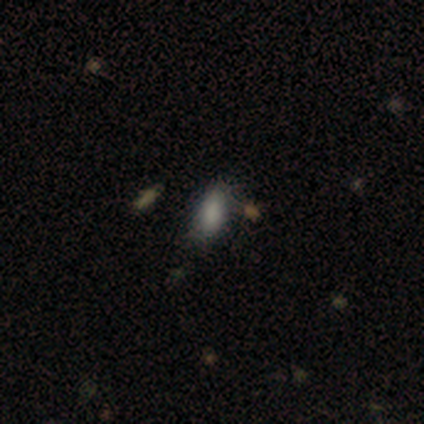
This appears to be a smooth galaxy with no disk features (100%) that is in between round and cigar-shaped (100%). Merging: none (40%, tied with minor disturbance).